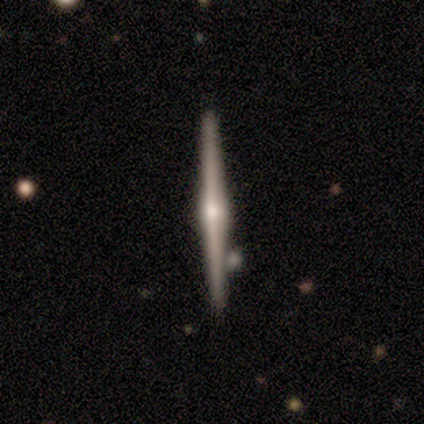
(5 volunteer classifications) A featured or disk galaxy (100%) viewed edge-on (100%) with a rounded central bulge (100%). Merging: none (80%).